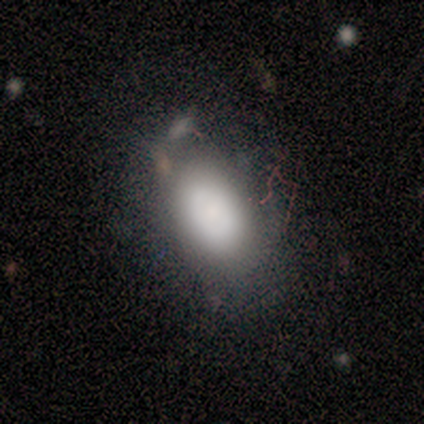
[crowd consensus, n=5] Smooth or featured: smooth — 100%
How rounded: in between — 60% (round — 40%)
Merging: none — 80% (minor disturbance — 20%)